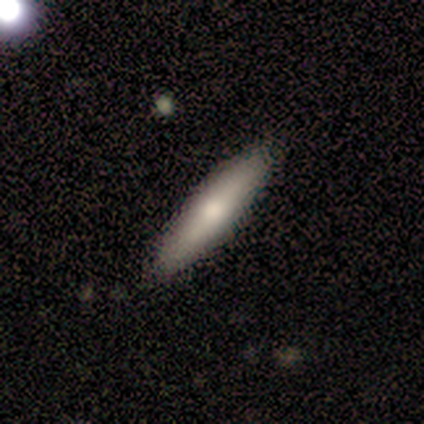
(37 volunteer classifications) Smooth or featured?
  - smooth: 62% *
  - featured or disk: 35%
  - star or artifact: 3%
How rounded?
  - cigar-shaped: 78% *
  - in between: 22%
  - round: 0%
Merging?
  - none: 81% *
  - minor disturbance: 11%
  - major disturbance: 6%
  - merger: 3%